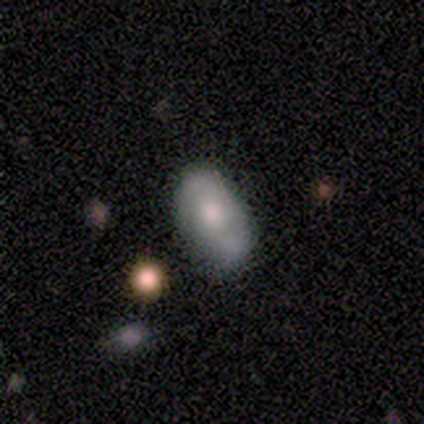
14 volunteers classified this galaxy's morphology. smooth-or-featured: smooth: 71% | featured or disk: 21% | star or artifact: 7%
  how-rounded: in between: 90% | cigar-shaped: 10% | round: 0%
  merging: none: 62% | minor disturbance: 31% | major disturbance: 8% | merger: 0%